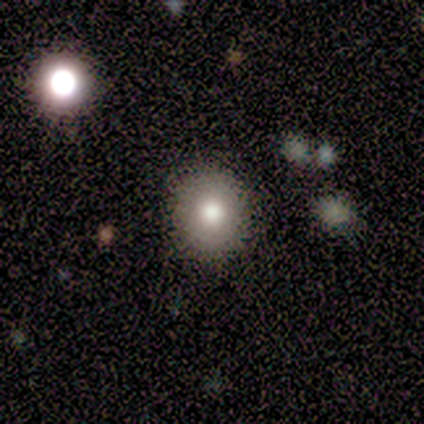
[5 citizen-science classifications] smooth-or-featured: smooth: 60% | featured or disk: 40% | star or artifact: 0%
  how-rounded: round: 100% | in between: 0% | cigar-shaped: 0%
  merging: none: 80% | minor disturbance: 20% | major disturbance: 0% | merger: 0%